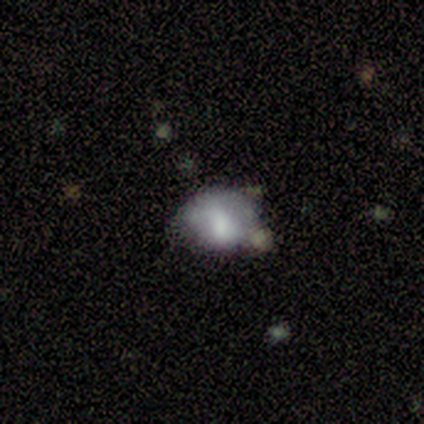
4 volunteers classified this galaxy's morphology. Smooth or featured? smooth (50%, tied with featured or disk)
How rounded? round (50%, tied with in between)
Merging? minor disturbance (50%)